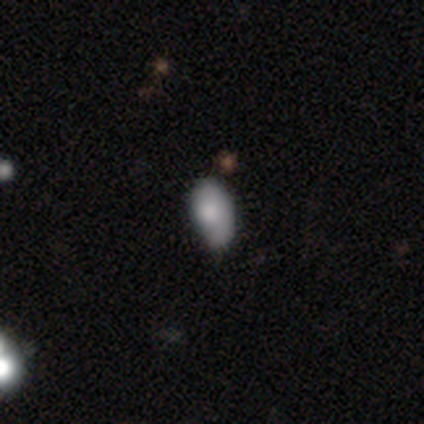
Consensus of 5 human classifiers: Smooth or featured: smooth — 80% (star or artifact — 20%)
How rounded: in between — 75% (round — 25%)
Merging: none — 50% (minor disturbance — 25%)